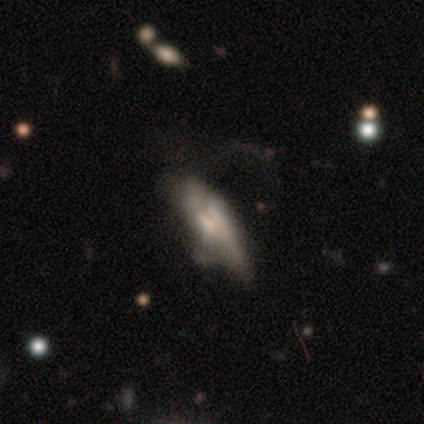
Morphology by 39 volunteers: Smooth or featured?
  - featured or disk: 54% *
  - smooth: 38%
  - star or artifact: 8%
Edge-on disk?
  - yes: 52% *
  - no: 48%
Edge-on bulge?
  - rounded: 55% *
  - boxy: 27%
  - none: 18%
Merging?
  - minor disturbance: 39% *
  - major disturbance: 33%
  - none: 22%
  - merger: 6%